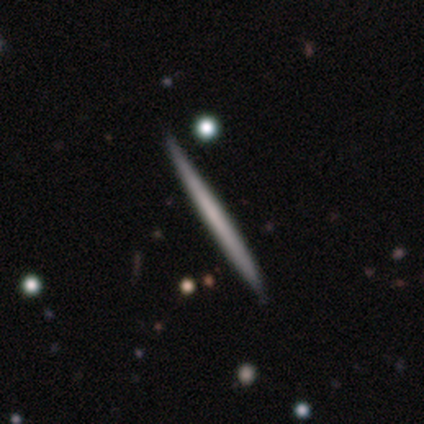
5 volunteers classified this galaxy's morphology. A featured or disk galaxy (60%) viewed edge-on (100%) with no central bulge (67%).

Vote fractions:
- Smooth or featured? featured or disk: 60% / smooth: 40% / star or artifact: 0%
- Edge-on disk? yes: 100% / no: 0%
- Edge-on bulge? none: 67% / rounded: 33% / boxy: 0%
- Merging? none: 80% / minor disturbance: 20% / major disturbance: 0% / merger: 0%